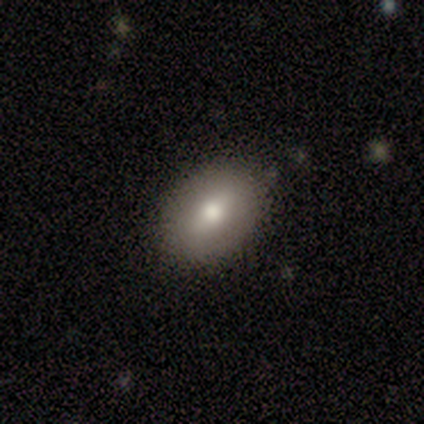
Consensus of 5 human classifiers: Smooth or featured? featured or disk (60%)
Edge-on disk? no (100%)
Bar? weak (67%)
Spiral arms? no (100%)
Bulge size? moderate (67%)
Merging? none (100%)